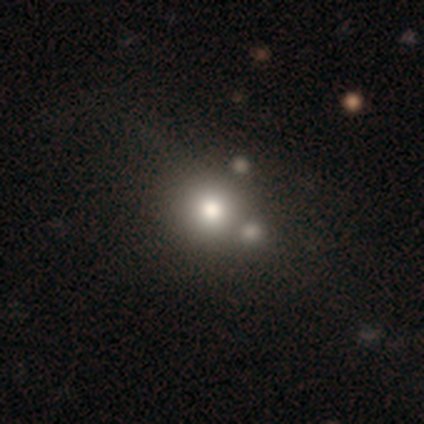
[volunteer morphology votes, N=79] Overall: smooth (76%). How rounded: round (92%). Merging: merger (31%; none 26%).